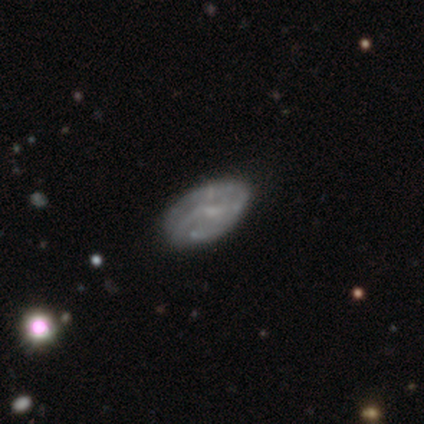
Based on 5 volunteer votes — This appears to be a smooth galaxy with no disk features (40%, tied with featured or disk) that is in between round and cigar-shaped (100%). Merging: none (75%).